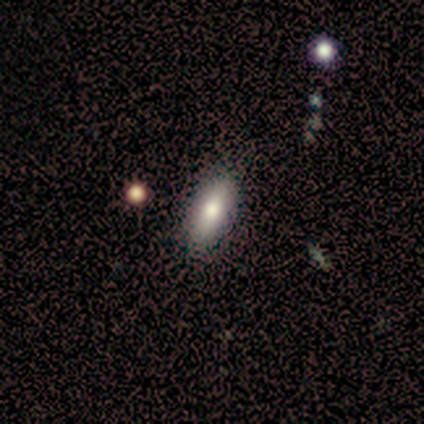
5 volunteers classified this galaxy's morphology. Overall: smooth (100%). How rounded: cigar-shaped (60%; in between 40%). Merging: none (100%).